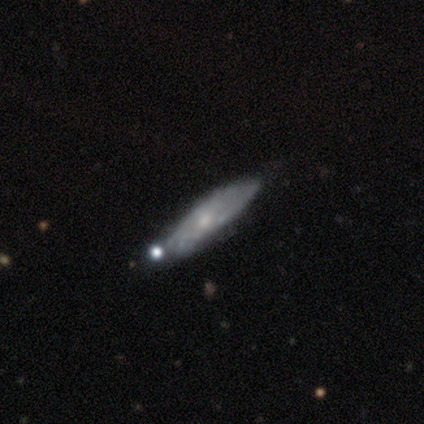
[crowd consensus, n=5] Overall: featured or disk (80%). Edge-on disk: no (100%). Bar: no (100%). Spiral arms: yes (50%, tied with no). Spiral arm count: can't tell (100%). Spiral winding: tight (100%). Bulge size: small (75%). Merging: none (100%).